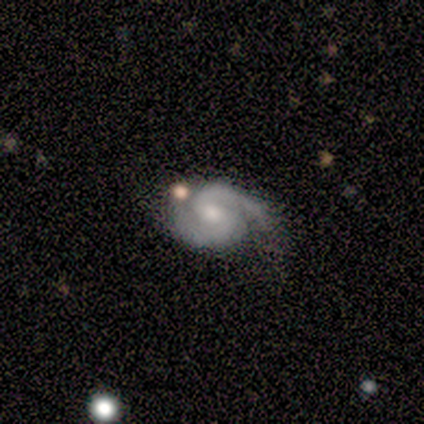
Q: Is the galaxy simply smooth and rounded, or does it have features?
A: featured or disk — 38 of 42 (90%).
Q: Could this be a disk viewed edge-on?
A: no — 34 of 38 (89%).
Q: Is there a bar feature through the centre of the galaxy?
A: weak — 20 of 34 (59%).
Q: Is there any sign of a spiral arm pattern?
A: yes — 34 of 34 (100%).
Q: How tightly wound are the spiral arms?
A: tight — 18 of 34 (53%).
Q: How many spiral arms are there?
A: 2 — 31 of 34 (91%).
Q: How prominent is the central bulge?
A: moderate — 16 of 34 (47%, tied with small).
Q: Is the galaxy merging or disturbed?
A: none — 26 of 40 (65%).